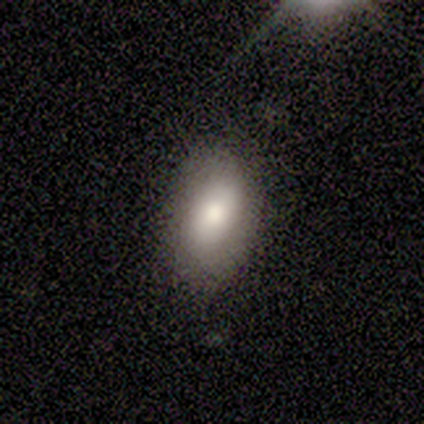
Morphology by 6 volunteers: Smooth or featured?
  - smooth: 100% *
  - featured or disk: 0%
  - star or artifact: 0%
How rounded?
  - in between: 100% *
  - round: 0%
  - cigar-shaped: 0%
Merging?
  - none: 50% *
  - minor disturbance: 33%
  - major disturbance: 17%
  - merger: 0%